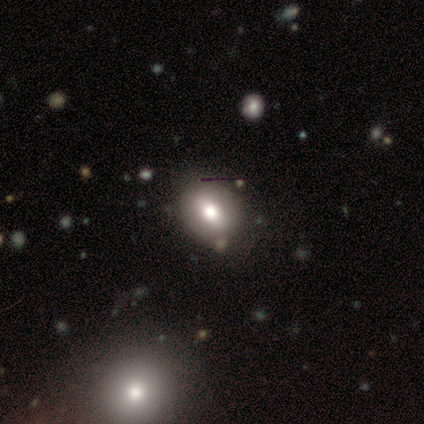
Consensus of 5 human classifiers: Overall: smooth (40%, tied with star or artifact). How rounded: round (50%, tied with in between). Merging: merger (67%; none 33%).